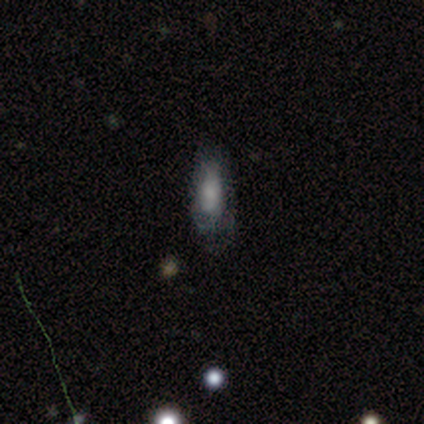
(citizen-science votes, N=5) A smooth galaxy with no disk features (80%) that is in between round and cigar-shaped (75%). Merging: none (40%, tied with major disturbance).